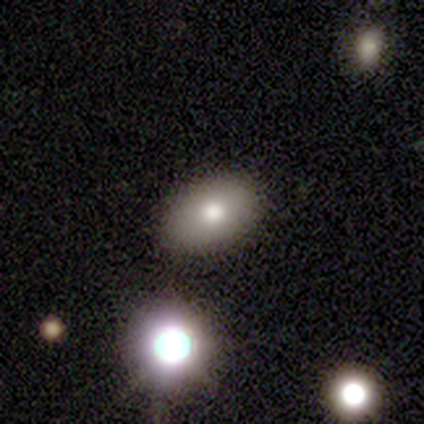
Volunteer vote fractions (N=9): This appears to be a smooth galaxy with no disk features (89%) that is in between round and cigar-shaped (100%). Merging: none (88%).